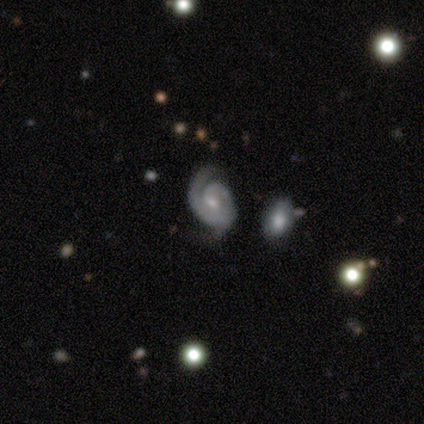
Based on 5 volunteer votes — Morphology: type=featured or disk (100%); edge-on=no (100%); bar=no (60%); spiral arms=yes (100%); winding=medium (100%); arm count=2 (80%); bulge=moderate (60%); merging=none (80%).